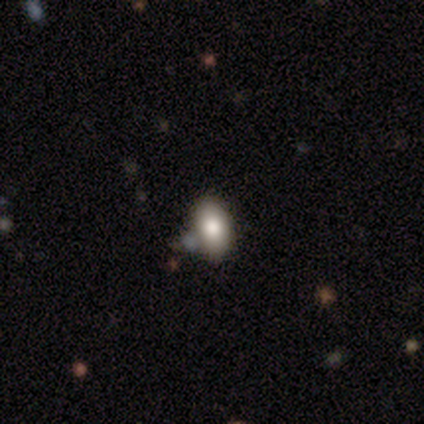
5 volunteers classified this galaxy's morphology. This is clearly a smooth galaxy (80%). How rounded: clearly in between (100%). Merging: clearly none (100%).